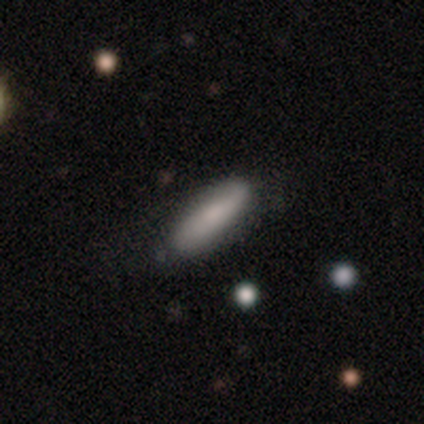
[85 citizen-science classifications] smooth_or_featured: smooth (p=0.69) [alt: featured or disk p=0.25]
how_rounded: cigar-shaped (p=0.69) [alt: in between p=0.29]
merging: none (p=0.71) [alt: minor disturbance p=0.14]